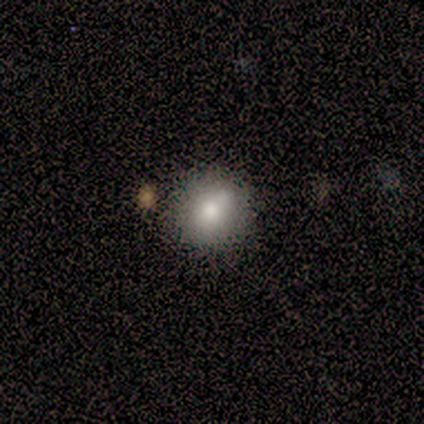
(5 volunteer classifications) Smooth or featured? 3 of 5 (60%) said smooth. How rounded? 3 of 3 (100%) said round. Merging? 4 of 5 (80%) said none.